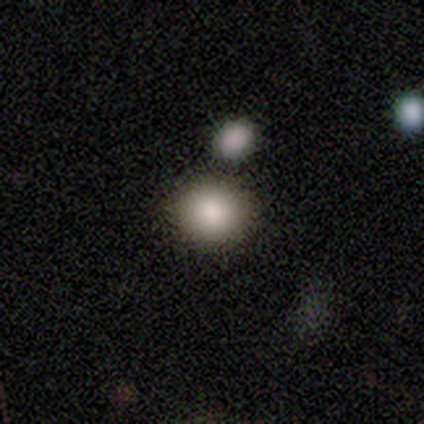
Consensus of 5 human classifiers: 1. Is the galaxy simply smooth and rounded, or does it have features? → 100% smooth, 0% featured or disk, 0% star or artifact.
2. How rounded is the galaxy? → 100% round, 0% in between, 0% cigar-shaped.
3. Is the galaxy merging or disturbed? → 80% none, 20% merger, 0% minor disturbance, 0% major disturbance.